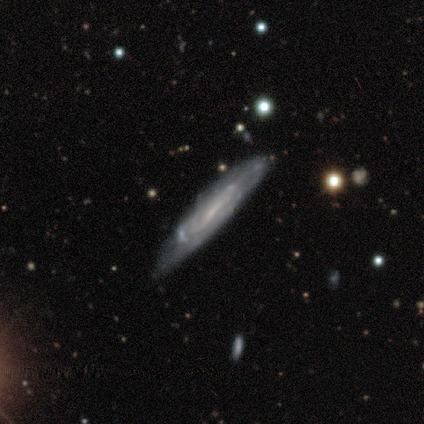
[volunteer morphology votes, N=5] This appears to be a smooth galaxy with no disk features (40%, tied with featured or disk) that is cigar-shaped (100%). Merging: minor disturbance (75%).